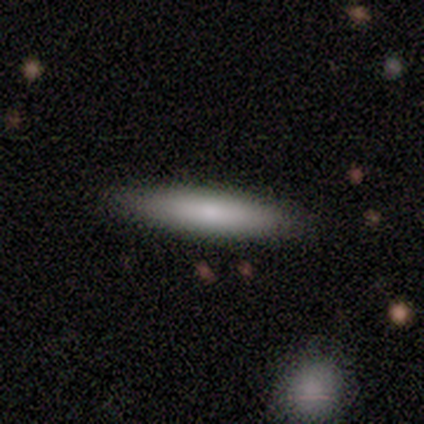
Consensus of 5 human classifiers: Smooth or featured? 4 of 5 (80%) said smooth. How rounded? 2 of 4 (50%, tied with cigar-shaped) said in between. Merging? 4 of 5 (80%) said none.